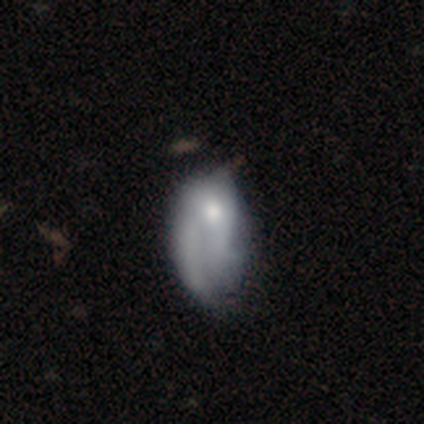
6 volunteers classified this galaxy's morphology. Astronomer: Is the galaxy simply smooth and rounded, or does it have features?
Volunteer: smooth — 67%.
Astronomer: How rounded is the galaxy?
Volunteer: in between — 100%.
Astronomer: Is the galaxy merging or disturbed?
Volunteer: major disturbance — 50%.